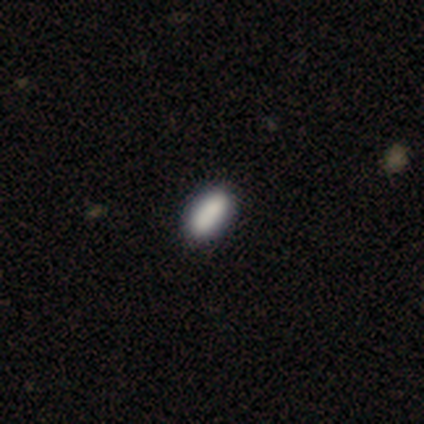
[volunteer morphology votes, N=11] Overall: smooth (91%). How rounded: in between (90%). Merging: none (73%).